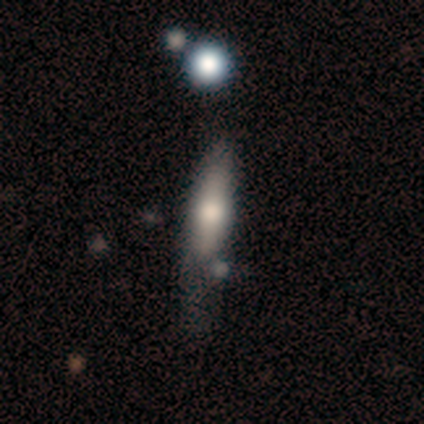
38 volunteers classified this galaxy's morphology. This appears to be a smooth galaxy with no disk features (68%) that is cigar-shaped (81%). Merging: minor disturbance (49%).